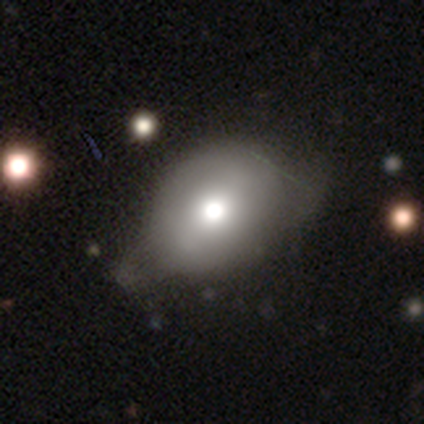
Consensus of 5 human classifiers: A smooth galaxy with no disk features (60%) that is round (67%).

Vote fractions:
- Smooth or featured? smooth: 60% / featured or disk: 40% / star or artifact: 0%
- How rounded? round: 67% / in between: 33% / cigar-shaped: 0%
- Merging? none: 60% / minor disturbance: 40% / major disturbance: 0% / merger: 0%